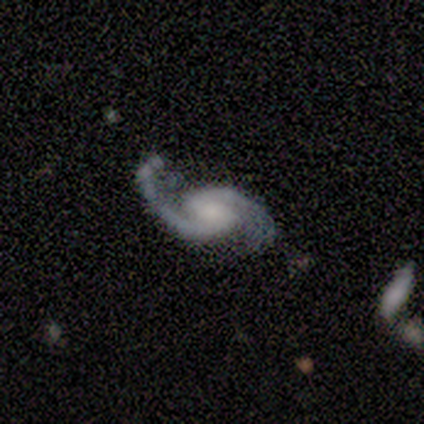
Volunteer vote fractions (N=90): This appears to be a featured or disk galaxy (93%) with no bar (51%), 2 (99%) medium (52%) spiral arms (100%) and a moderate central bulge (31%, tied with small). Merging: none (50%).